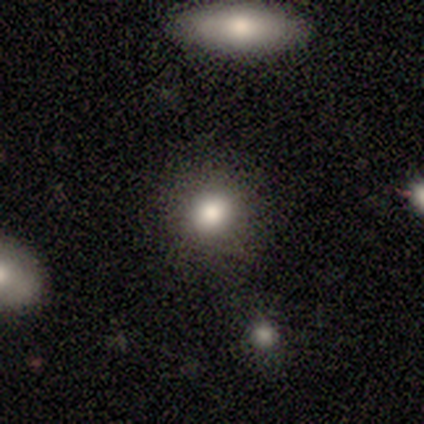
smooth_or_featured: smooth (p=0.75) [alt: star or artifact p=0.15]
how_rounded: round (p=0.80) [alt: in between p=0.20]
merging: none (p=0.88) [alt: minor disturbance p=0.12]